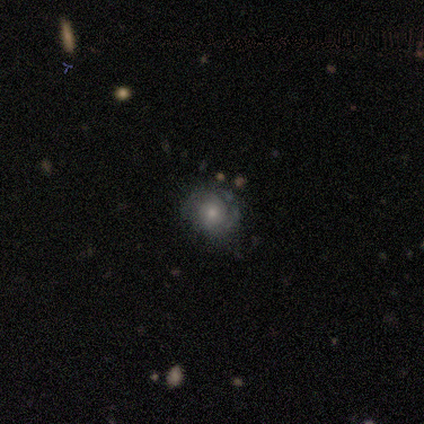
Smooth or featured? 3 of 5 (60%) said featured or disk. Edge-on disk? 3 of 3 (100%) said no. Bar? 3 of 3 (100%) said no. Spiral arms? 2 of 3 (67%) said yes. Spiral winding? 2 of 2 (100%) said medium. Spiral arm count? 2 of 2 (100%) said 2. Bulge size? 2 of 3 (67%) said moderate. Merging? 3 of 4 (75%) said none.